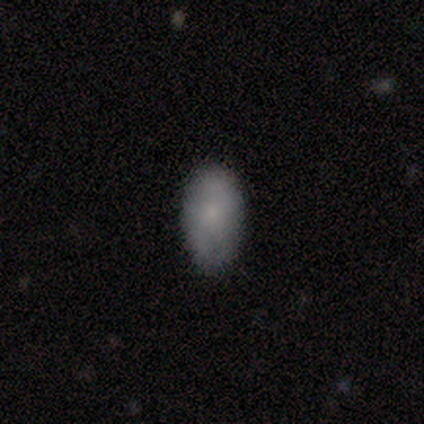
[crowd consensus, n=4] This is possibly a smooth galaxy (50%). How rounded: clearly in between (100%). Merging: clearly none (100%).